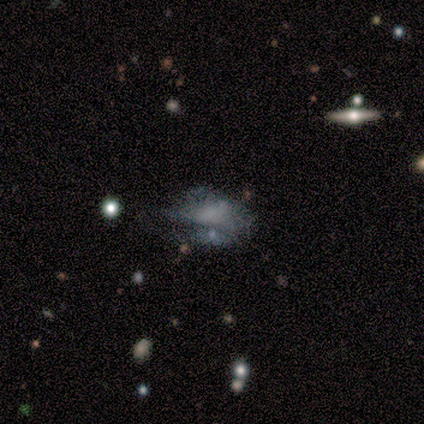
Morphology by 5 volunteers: Smooth or featured?
  - smooth: 40% * (tied)
  - featured or disk: 40% * (tied)
  - star or artifact: 20%
How rounded?
  - in between: 100% *
  - round: 0%
  - cigar-shaped: 0%
Merging?
  - none: 50% *
  - minor disturbance: 25%
  - major disturbance: 25%
  - merger: 0%